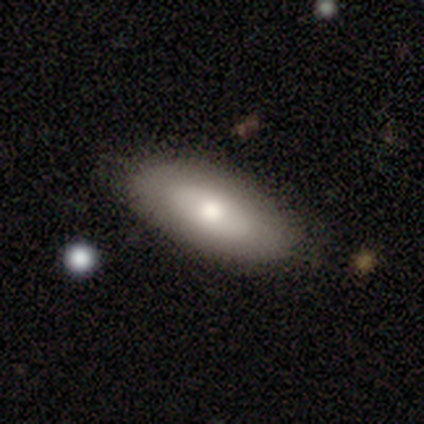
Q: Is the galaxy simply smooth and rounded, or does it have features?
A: smooth — 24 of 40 (60%).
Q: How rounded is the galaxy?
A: in between — 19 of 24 (79%).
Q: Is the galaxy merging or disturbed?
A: none — 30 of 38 (79%).